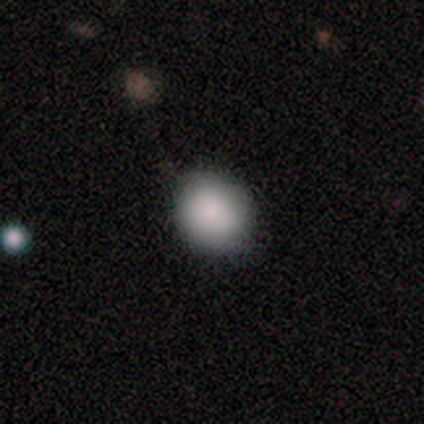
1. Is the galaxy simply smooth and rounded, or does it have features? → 87% smooth, 7% featured or disk, 7% star or artifact.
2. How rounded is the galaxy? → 77% round, 23% in between, 0% cigar-shaped.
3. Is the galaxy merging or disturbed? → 75% none, 18% minor disturbance, 5% merger, 2% major disturbance.